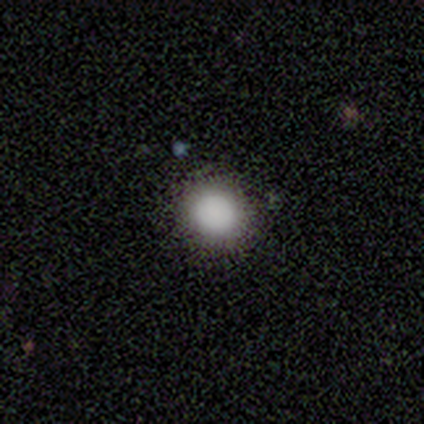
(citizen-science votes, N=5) This is clearly a smooth galaxy (100%). How rounded: clearly round (100%). Merging: clearly none (80%).